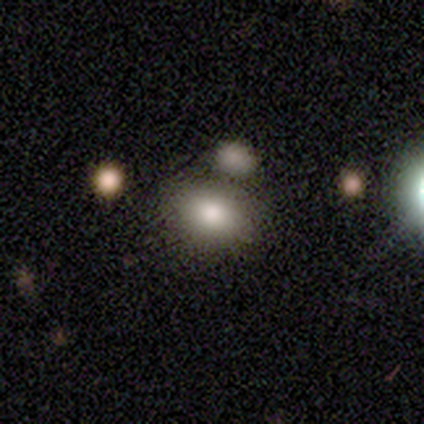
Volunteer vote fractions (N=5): smooth-or-featured: smooth: 80% | star or artifact: 20% | featured or disk: 0%
  how-rounded: in between: 100% | round: 0% | cigar-shaped: 0%
  merging: none: 100% | minor disturbance: 0% | major disturbance: 0% | merger: 0%